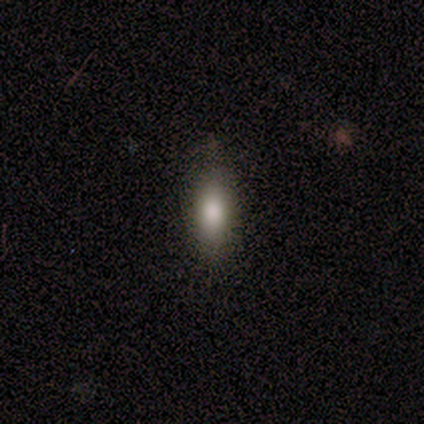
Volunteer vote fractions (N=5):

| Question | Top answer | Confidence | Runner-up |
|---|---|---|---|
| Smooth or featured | smooth | 100% | — |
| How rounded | in between | 60% | cigar-shaped (40%) |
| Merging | none | 80% | minor disturbance (20%) |